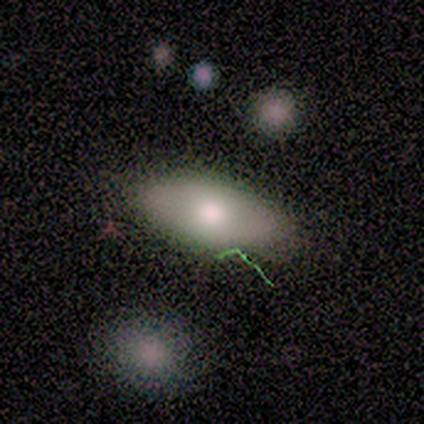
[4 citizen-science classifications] smooth 100%, featured or disk 0%, star or artifact 0%. Down the decision tree: how rounded — in between (100%); merging — none (100%).